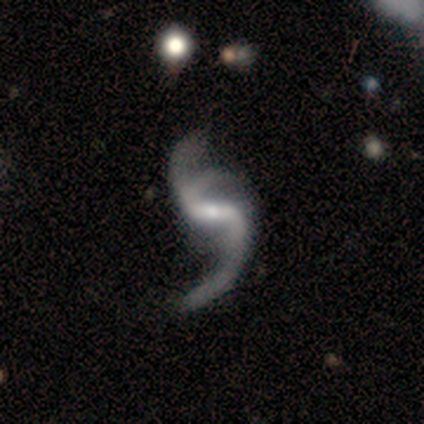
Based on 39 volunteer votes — Q: Smooth or featured?
A: featured or disk (92%); runner-up: star or artifact (8%)
Q: Edge-on disk?
A: no (100%)
Q: Bar?
A: strong (56%); runner-up: weak (39%)
Q: Spiral arms?
A: yes (100%)
Q: Spiral winding?
A: loose (94%); runner-up: medium (6%)
Q: Spiral arm count?
A: 3 (50%); runner-up: 2 (44%)
Q: Bulge size?
A: small (67%); runner-up: moderate (28%)
Q: Merging?
A: none (31%); runner-up: minor disturbance (22%)